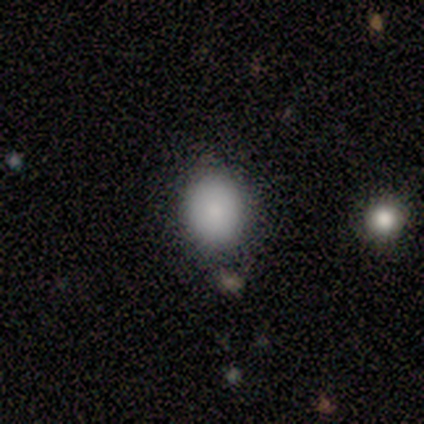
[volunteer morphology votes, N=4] Smooth or featured: smooth — 100%
How rounded: round — 100%
Merging: none — 75% (minor disturbance — 25%)